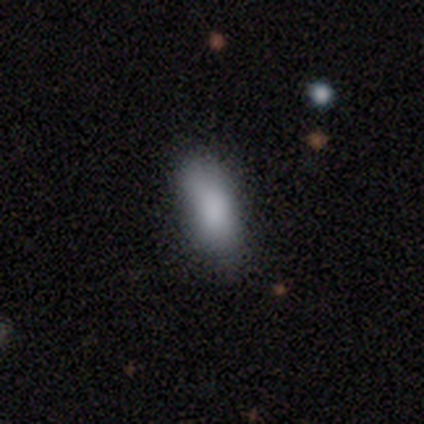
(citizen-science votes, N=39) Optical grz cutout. It shows a smooth galaxy with no disk features (95%) that is in between round and cigar-shaped (78%). Merging: none (72%).